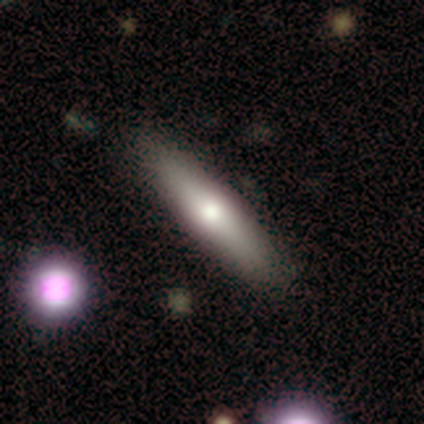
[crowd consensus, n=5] smooth-or-featured: smooth: 80% | featured or disk: 20% | star or artifact: 0%
  how-rounded: cigar-shaped: 75% | in between: 25% | round: 0%
  merging: none: 100% | minor disturbance: 0% | major disturbance: 0% | merger: 0%